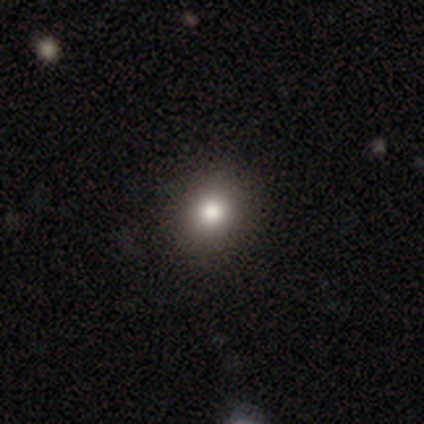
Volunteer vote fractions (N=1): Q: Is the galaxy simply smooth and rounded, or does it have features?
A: smooth — 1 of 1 (100%).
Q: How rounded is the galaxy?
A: round — 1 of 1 (100%).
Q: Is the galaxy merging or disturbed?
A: none — 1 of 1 (100%).